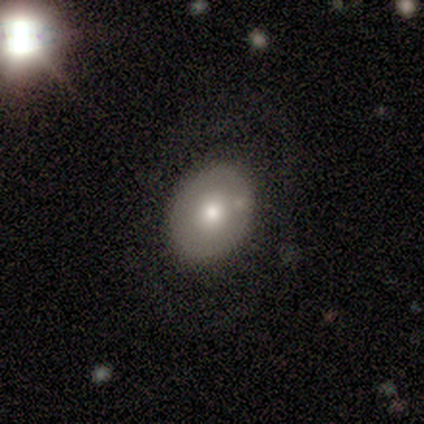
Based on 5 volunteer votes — This is likely a smooth galaxy (60%). How rounded: clearly in between (100%). Merging: clearly none (100%).